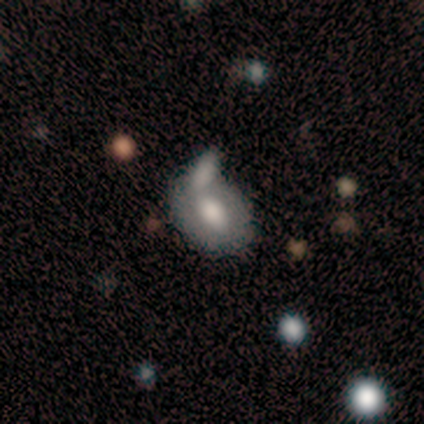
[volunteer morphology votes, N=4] A smooth galaxy with no disk features (50%) that is in between round and cigar-shaped (100%).

Vote fractions:
- Smooth or featured? smooth: 50% / featured or disk: 25% / star or artifact: 25%
- How rounded? in between: 100% / round: 0% / cigar-shaped: 0%
- Merging? none: 67% / minor disturbance: 33% / major disturbance: 0% / merger: 0%